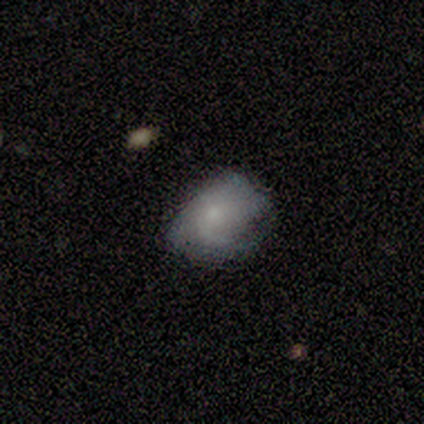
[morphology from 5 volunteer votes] Smooth or featured: smooth — 80% (featured or disk — 20%)
How rounded: in between — 75% (round — 25%)
Merging: none — 40% (tied with major disturbance — 40%)